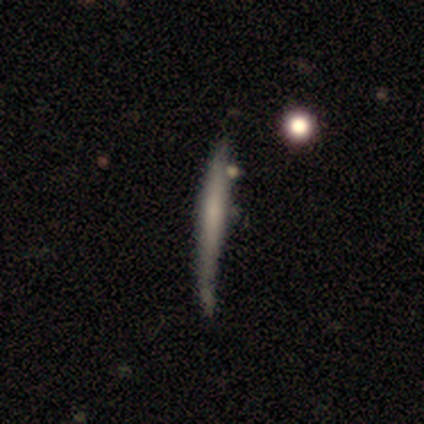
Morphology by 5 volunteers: This appears to be a smooth galaxy with no disk features (60%) that is cigar-shaped (100%). Merging: none (80%).